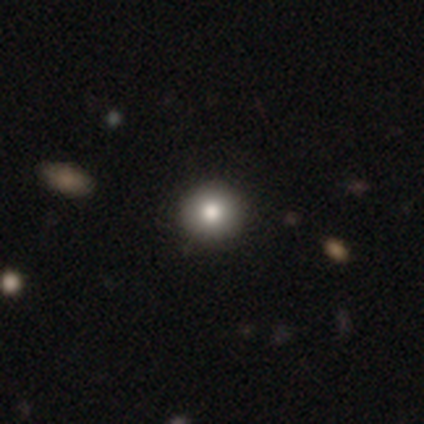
smooth-or-featured: smooth: 75% | star or artifact: 25% | featured or disk: 0%
  how-rounded: round: 67% | in between: 33% | cigar-shaped: 0%
  merging: none: 100% | minor disturbance: 0% | major disturbance: 0% | merger: 0%